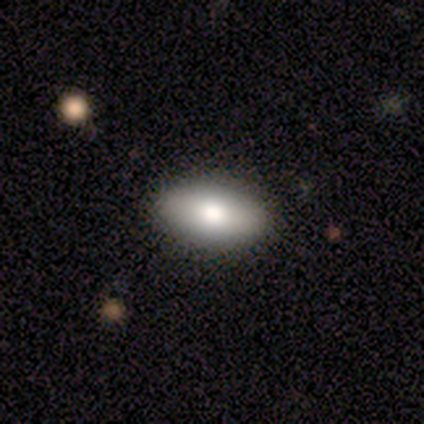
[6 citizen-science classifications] smooth 67%, featured or disk 33%, star or artifact 0%. Down the decision tree: how rounded — in between (100%); merging — none (100%).